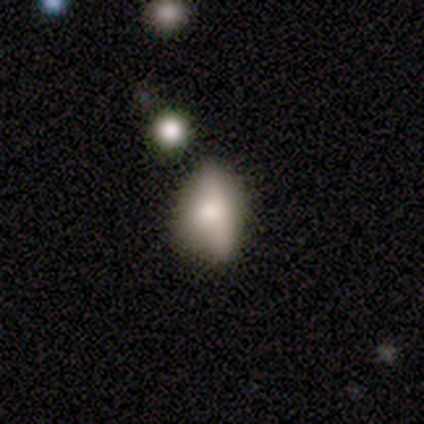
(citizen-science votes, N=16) Volunteers were most divided on "merging": minor disturbance: 62%, none: 31%, major disturbance: 8%, merger: 0%. More confident: how rounded — in between (80%); smooth or featured — smooth (62%).